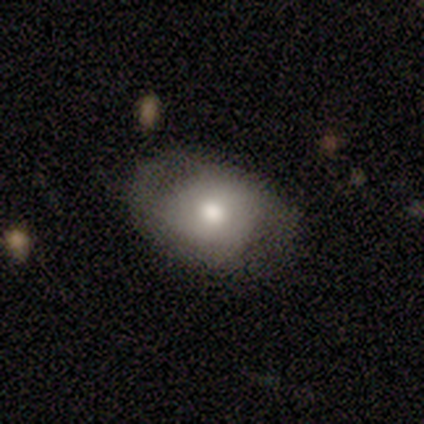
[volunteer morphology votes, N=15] Volunteers were most divided on "smooth or featured" (2-way tie): smooth: 47%, featured or disk: 47%, star or artifact: 7%. More confident: how rounded — in between (71%); merging — none (57%).